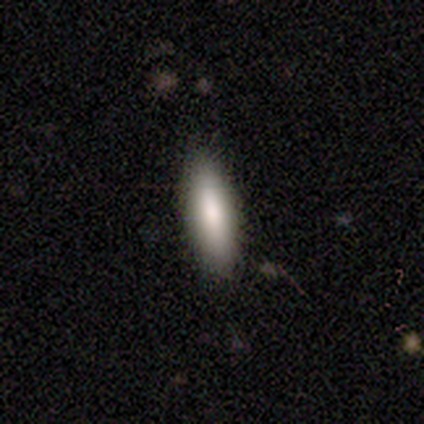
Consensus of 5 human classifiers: Q: Smooth or featured?
A: smooth (100%)
Q: How rounded?
A: in between (80%); runner-up: cigar-shaped (20%)
Q: Merging?
A: none (80%); runner-up: minor disturbance (20%)